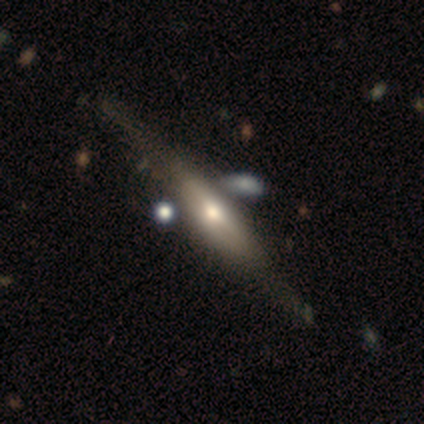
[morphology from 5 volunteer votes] Smooth or featured? featured or disk (100%)
Edge-on disk? yes (80%)
Edge-on bulge? boxy (75%)
Merging? none (80%)